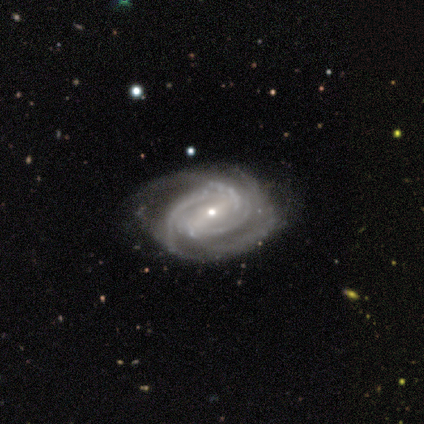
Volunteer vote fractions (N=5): Volunteers were most divided on "bar": no: 50%, strong: 25%, weak: 25%. More confident: edge-on disk — no (100%); spiral arms — yes (100%); spiral winding — tight (100%); bulge size — small (100%); smooth or featured — featured or disk (80%); spiral arm count — can't tell (50%); merging — none (50%).